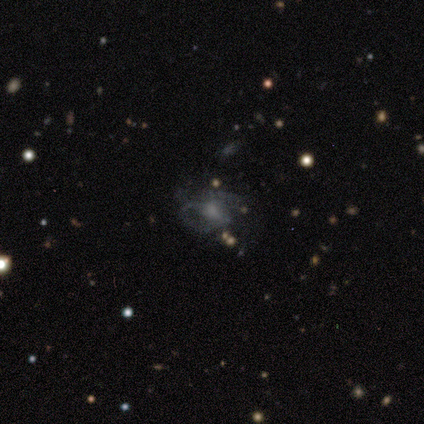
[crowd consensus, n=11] Smooth or featured: featured or disk — 73% (smooth — 18%)
Edge-on disk: no — 100%
Bar: weak — 50% (tied with no — 50%)
Spiral arms: yes — 50% (tied with no — 50%)
Spiral winding: medium — 50% (tight — 25%)
Spiral arm count: can't tell — 50% (2 — 25%)
Bulge size: none — 62% (small — 25%)
Merging: none — 40% (tied with major disturbance — 40%)